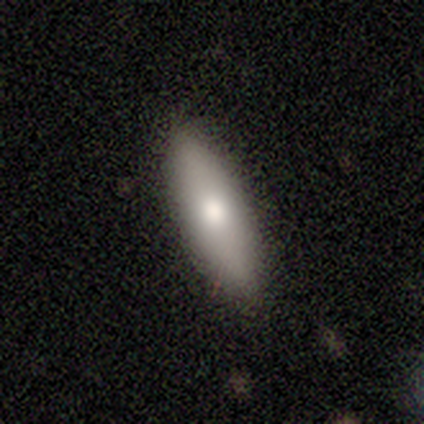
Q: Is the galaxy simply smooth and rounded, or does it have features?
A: smooth — 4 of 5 (80%).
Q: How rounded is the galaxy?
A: in between — 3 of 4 (75%).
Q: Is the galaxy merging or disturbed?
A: none — 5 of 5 (100%).